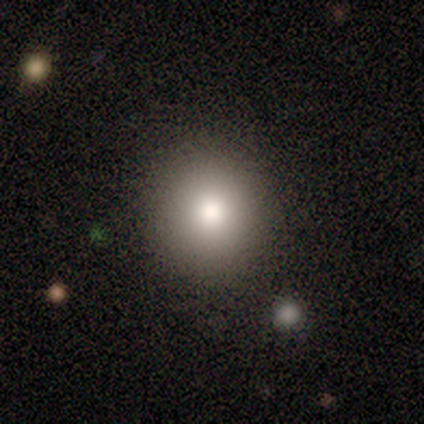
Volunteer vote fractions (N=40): Smooth or featured? 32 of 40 (80%) said smooth. How rounded? 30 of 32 (94%) said round. Merging? 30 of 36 (83%) said none.